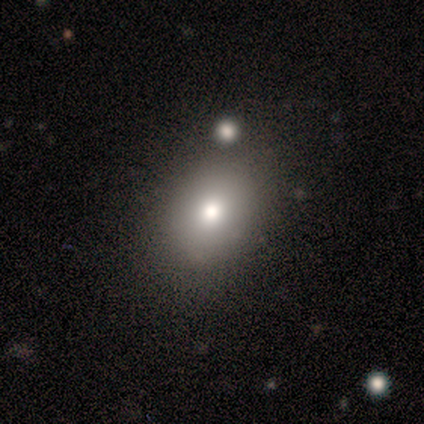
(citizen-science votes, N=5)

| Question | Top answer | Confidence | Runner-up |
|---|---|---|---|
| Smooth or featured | smooth | 100% | — |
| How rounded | in between | 80% | round (20%) |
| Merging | none | 80% | minor disturbance (20%) |